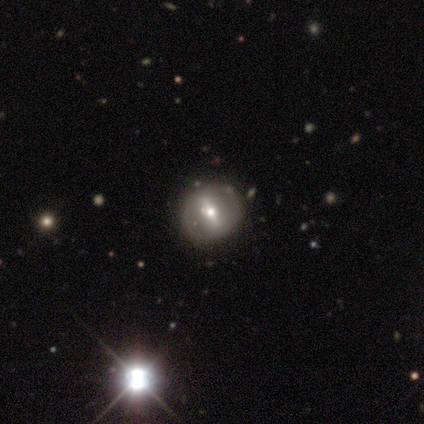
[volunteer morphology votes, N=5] Smooth or featured? featured or disk (60%)
Edge-on disk? no (100%)
Bar? strong (100%)
Spiral arms? no (100%)
Bulge size? moderate (100%)
Merging? none (100%)